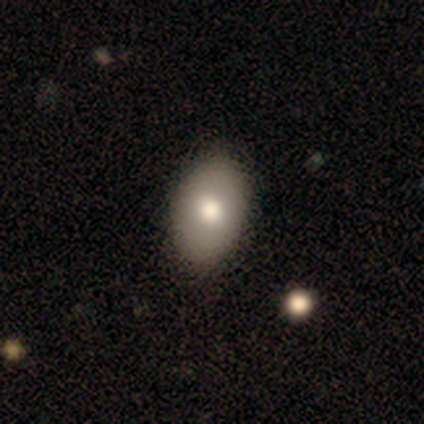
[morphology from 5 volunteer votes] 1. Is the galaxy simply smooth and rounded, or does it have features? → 80% smooth, 20% star or artifact, 0% featured or disk.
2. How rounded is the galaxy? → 75% in between, 25% round, 0% cigar-shaped.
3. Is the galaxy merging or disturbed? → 75% none, 25% minor disturbance, 0% major disturbance, 0% merger.